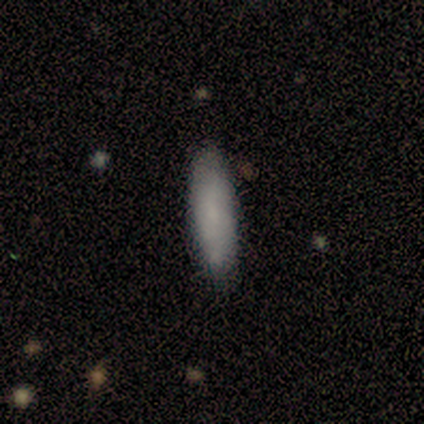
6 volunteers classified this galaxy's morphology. smooth 83%, star or artifact 17%, featured or disk 0%. Down the decision tree: how rounded — cigar-shaped (80%); merging — none (100%).